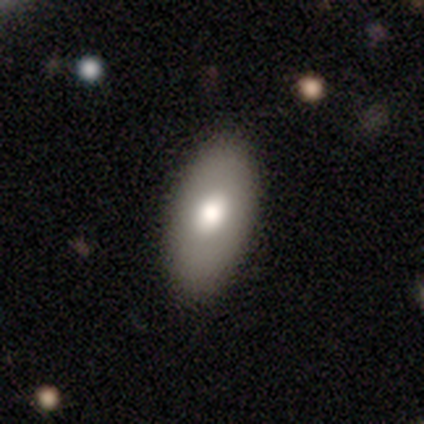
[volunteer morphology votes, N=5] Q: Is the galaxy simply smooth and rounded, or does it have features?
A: smooth — 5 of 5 (100%).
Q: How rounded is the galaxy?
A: in between — 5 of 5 (100%).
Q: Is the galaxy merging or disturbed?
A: none — 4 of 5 (80%).